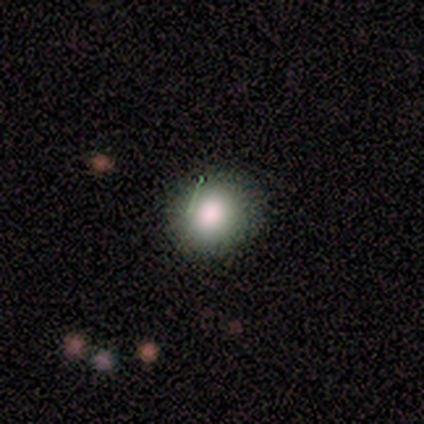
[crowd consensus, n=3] This is clearly a smooth galaxy (100%). How rounded: clearly round (100%). Merging: clearly none (100%).